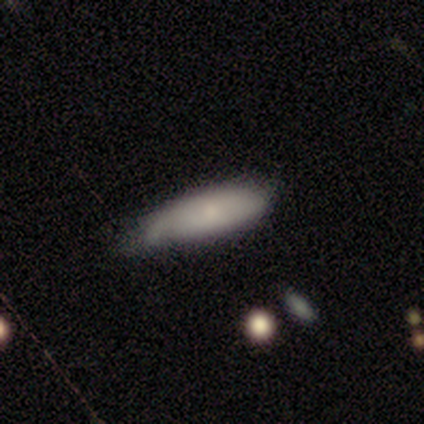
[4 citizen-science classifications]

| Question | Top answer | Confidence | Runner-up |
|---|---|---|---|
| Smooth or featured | smooth | 75% | featured or disk (25%) |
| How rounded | in between | 67% | cigar-shaped (33%) |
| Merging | none | 50% | tied: minor disturbance (50%) |